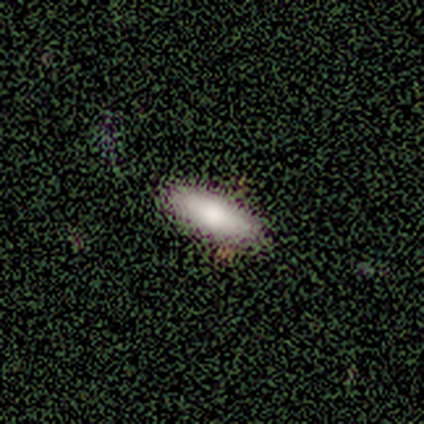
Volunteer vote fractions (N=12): Morphology: type=smooth (83%); roundness=in between (50%, tied with cigar-shaped); merging=none (58%).